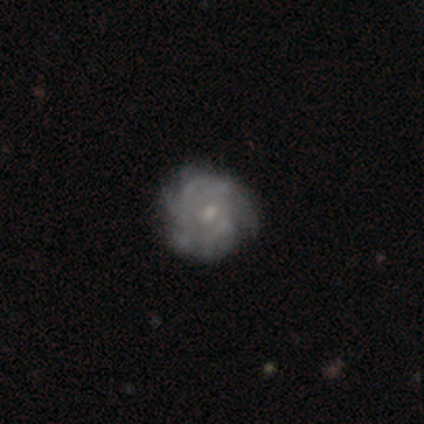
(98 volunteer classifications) Volunteers were most divided on "spiral arm count": can't tell: 44%, more than 4: 31%, 2: 11%, 4: 9%, 3: 3%, 1: 2%. More confident: edge-on disk — no (97%); spiral arms — yes (83%); smooth or featured — featured or disk (81%); merging — none (74%); bulge size — small (71%); bar — no (70%); spiral winding — tight (66%).